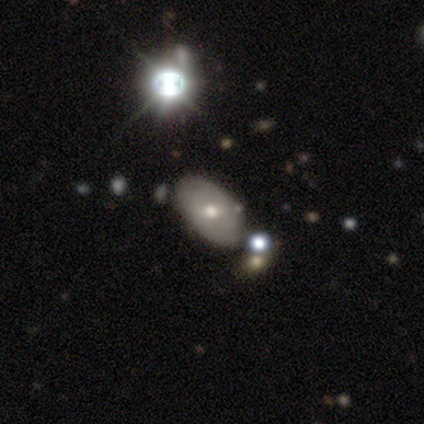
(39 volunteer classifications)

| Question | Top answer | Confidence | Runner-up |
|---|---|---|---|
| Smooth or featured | smooth | 49% | featured or disk (41%) |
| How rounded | in between | 95% | round (5%) |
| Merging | none | 74% | minor disturbance (11%) |